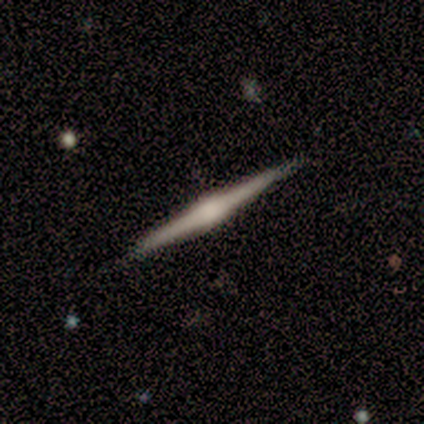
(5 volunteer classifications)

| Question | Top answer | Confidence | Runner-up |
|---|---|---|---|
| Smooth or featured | featured or disk | 60% | smooth (40%) |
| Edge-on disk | yes | 100% | — |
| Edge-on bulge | boxy | 67% | rounded (33%) |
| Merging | none | 100% | — |